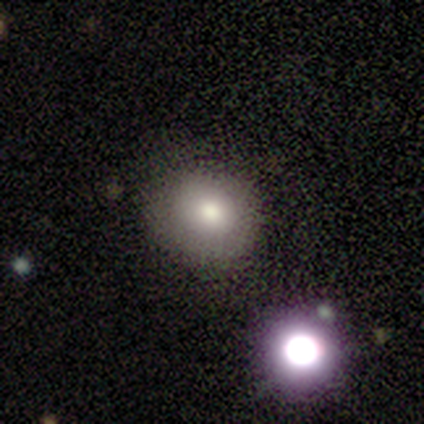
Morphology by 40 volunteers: Volunteers were most divided on "smooth or featured": smooth: 72%, star or artifact: 18%, featured or disk: 10%. More confident: how rounded — round (79%); merging — none (79%).